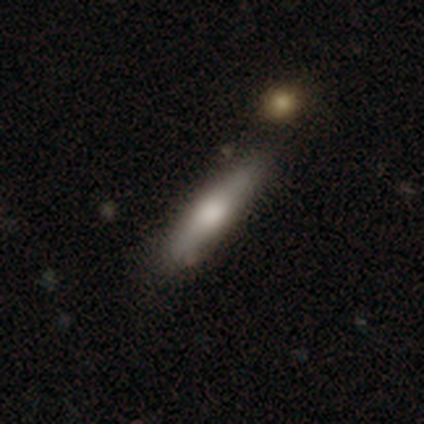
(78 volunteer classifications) smooth 62%, featured or disk 37%, star or artifact 1%. Down the decision tree: how rounded — cigar-shaped (73%); merging — none (44%).